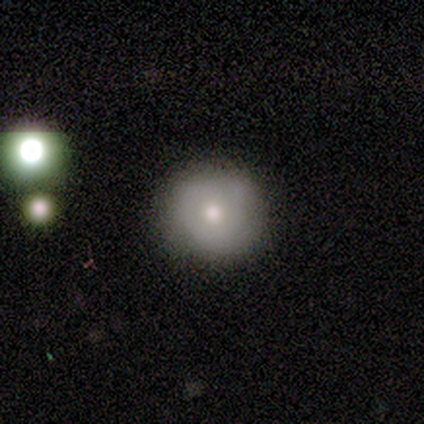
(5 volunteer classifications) A smooth galaxy with no disk features (60%) that is round (100%).

Vote fractions:
- Smooth or featured? smooth: 60% / featured or disk: 40% / star or artifact: 0%
- How rounded? round: 100% / in between: 0% / cigar-shaped: 0%
- Merging? none: 80% / minor disturbance: 20% / major disturbance: 0% / merger: 0%